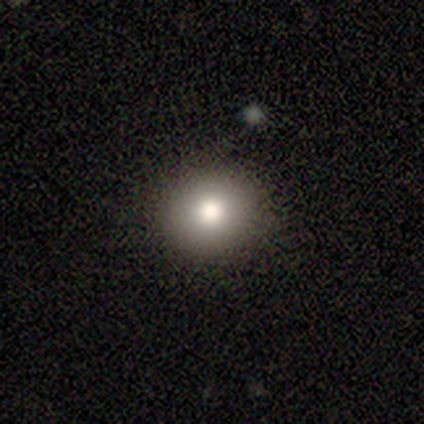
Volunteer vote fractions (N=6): Smooth or featured? smooth (67%)
How rounded? round (100%)
Merging? none (100%)